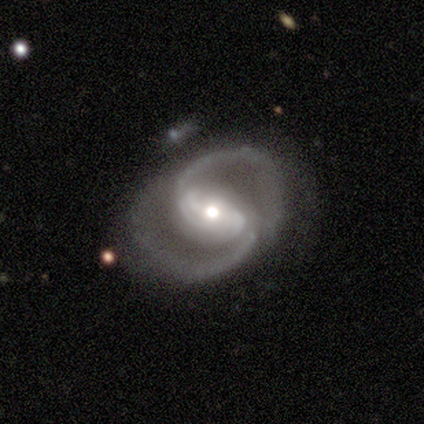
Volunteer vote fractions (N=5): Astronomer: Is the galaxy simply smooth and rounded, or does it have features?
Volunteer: featured or disk — 100%.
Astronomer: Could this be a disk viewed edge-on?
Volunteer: no — 100%.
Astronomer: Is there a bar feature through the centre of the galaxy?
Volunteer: strong — 40%, tied with weak at 40%.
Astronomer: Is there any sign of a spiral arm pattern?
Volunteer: yes — 100%.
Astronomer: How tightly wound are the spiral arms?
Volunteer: medium — 100%.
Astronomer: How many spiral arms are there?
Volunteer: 2 — 100%.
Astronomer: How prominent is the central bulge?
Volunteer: small — 60% (runner-up: moderate, 40%).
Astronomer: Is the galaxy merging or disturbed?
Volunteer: none — 80%.